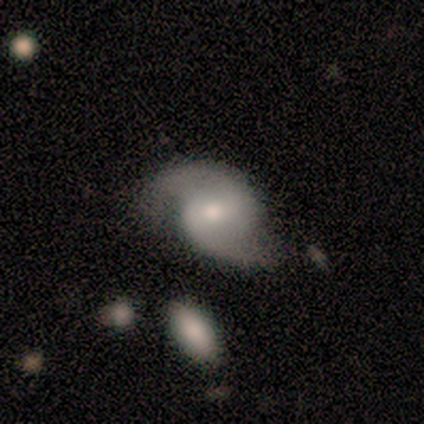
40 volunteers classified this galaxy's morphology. Q: Smooth or featured?
A: featured or disk (85%); runner-up: smooth (8%)
Q: Edge-on disk?
A: no (100%)
Q: Bar?
A: weak (59%); runner-up: strong (26%)
Q: Spiral arms?
A: yes (100%)
Q: Spiral winding?
A: medium (53%); runner-up: loose (35%)
Q: Spiral arm count?
A: 2 (100%)
Q: Bulge size?
A: moderate (59%); runner-up: small (35%)
Q: Merging?
A: none (65%); runner-up: minor disturbance (30%)